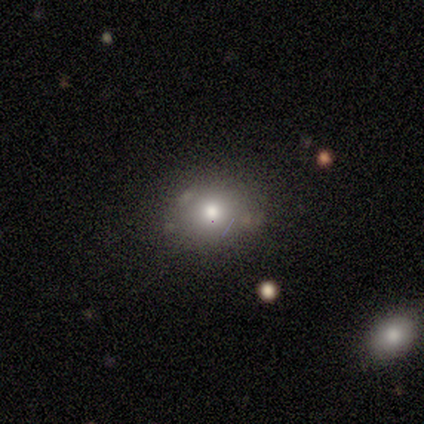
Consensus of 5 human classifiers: This appears to be a smooth galaxy with no disk features (60%) that is in between round and cigar-shaped (67%). Merging: minor disturbance (67%).